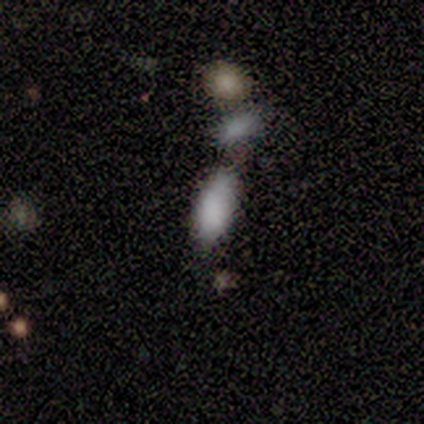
smooth_or_featured: smooth (p=0.40) [tied with: star or artifact p=0.40]
how_rounded: in between (p=1.00)
merging: minor disturbance (p=0.67) [alt: none p=0.33]